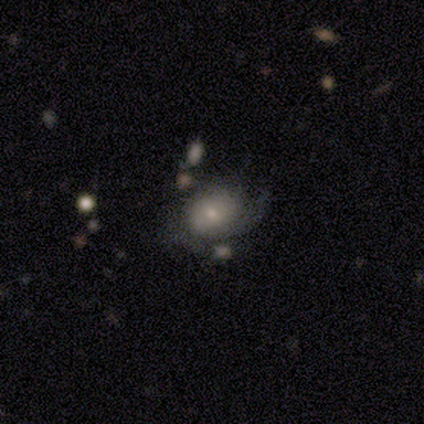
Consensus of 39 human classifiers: smooth-or-featured: featured or disk: 49% | smooth: 46% | star or artifact: 5%
  disk-edge-on: no: 100% | yes: 0%
    bar: no: 84% | strong: 11% | weak: 5%
    has-spiral-arms: yes: 63% | no: 37%
      spiral-winding: tight: 58% | medium: 25% | loose: 17%
      spiral-arm-count: can't tell: 42% | 2: 25% | 3: 17% | 1: 8% | more than 4: 8% | 4: 0%
    bulge-size: small: 74% | moderate: 16% | dominant: 5% | large: 5% | none: 0%
  merging: none: 43% | minor disturbance: 30% | major disturbance: 19% | merger: 8%